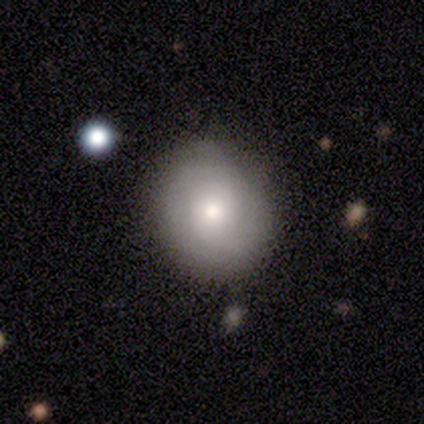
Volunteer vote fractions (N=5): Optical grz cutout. It shows a smooth galaxy with no disk features (60%) that is round (100%). Merging: none (100%).